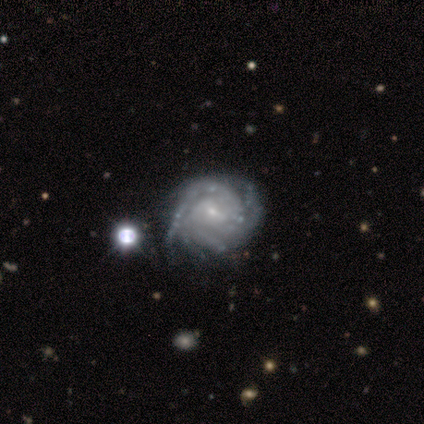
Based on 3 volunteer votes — Smooth or featured: featured or disk — 100%
Edge-on disk: no — 67% (yes — 33%)
Bar: weak — 50% (tied with no — 50%)
Spiral arms: yes — 100%
Spiral winding: tight — 100%
Spiral arm count: 2 — 50% (tied with can't tell — 50%)
Bulge size: small — 100%
Merging: minor disturbance — 67% (none — 33%)